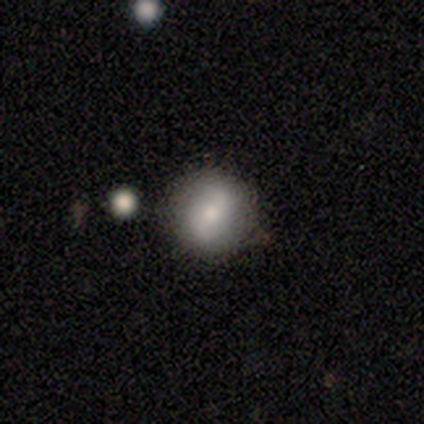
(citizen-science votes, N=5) Q: Smooth or featured?
A: smooth (80%); runner-up: featured or disk (20%)
Q: How rounded?
A: round (100%)
Q: Merging?
A: none (80%); runner-up: merger (20%)